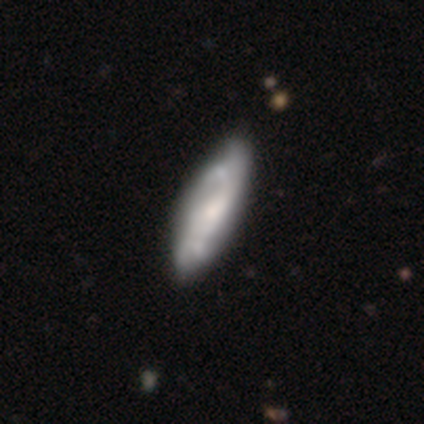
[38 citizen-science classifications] Smooth or featured?
  - featured or disk: 76% *
  - smooth: 24%
  - star or artifact: 0%
Edge-on disk?
  - no: 72% *
  - yes: 28%
Bar?
  - no: 62% *
  - weak: 29%
  - strong: 10%
Spiral arms?
  - yes: 90% *
  - no: 10%
Spiral winding?
  - medium: 47% *
  - tight: 32%
  - loose: 21%
Spiral arm count?
  - 2: 42% *
  - can't tell: 32%
  - 4: 16%
  - 3: 11%
  - 1: 0%
  - more than 4: 0%
Bulge size?
  - moderate: 48% *
  - small: 38%
  - large: 14%
  - dominant: 0%
  - none: 0%
Merging?
  - none: 55% *
  - minor disturbance: 11%
  - major disturbance: 8%
  - merger: 3%